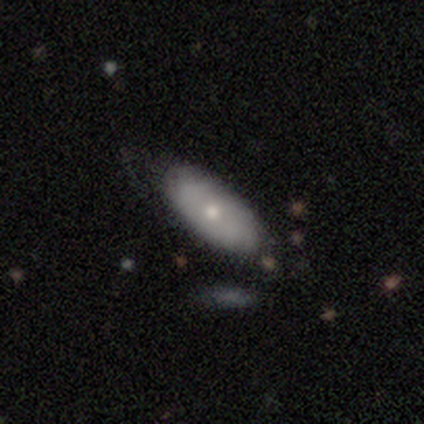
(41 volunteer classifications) smooth_or_featured: smooth (p=0.59) [alt: featured or disk p=0.37]
how_rounded: in between (p=0.83) [alt: cigar-shaped p=0.12]
merging: none (p=0.67) [alt: minor disturbance p=0.26]